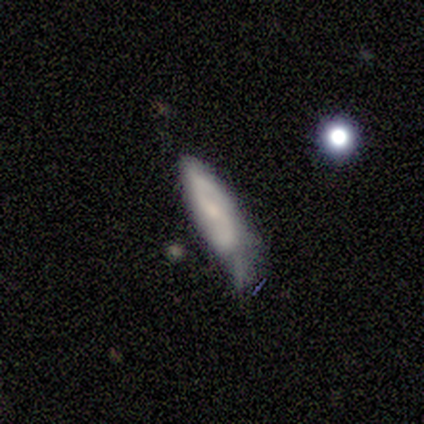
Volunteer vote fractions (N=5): Q: Smooth or featured?
A: smooth (40%); tied with: featured or disk (40%)
Q: How rounded?
A: in between (50%); tied with: cigar-shaped (50%)
Q: Merging?
A: minor disturbance (75%); runner-up: none (25%)